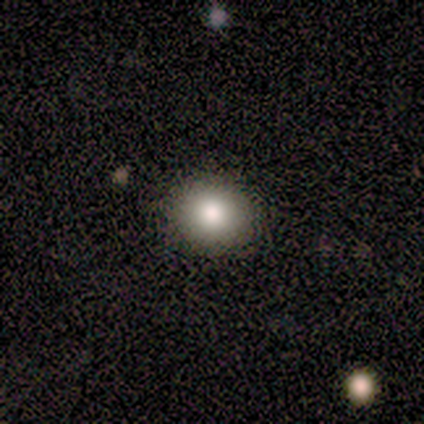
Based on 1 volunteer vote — Smooth or featured?
  - smooth: 100% *
  - featured or disk: 0%
  - star or artifact: 0%
How rounded?
  - round: 100% *
  - in between: 0%
  - cigar-shaped: 0%
Merging?
  - none: 100% *
  - minor disturbance: 0%
  - major disturbance: 0%
  - merger: 0%